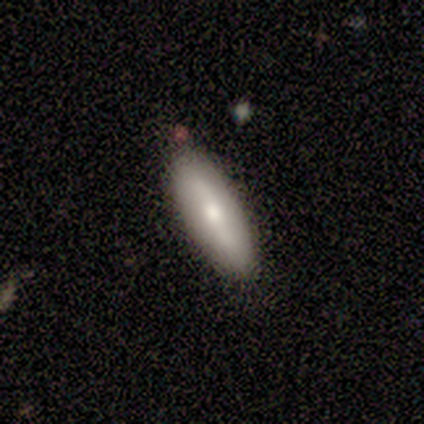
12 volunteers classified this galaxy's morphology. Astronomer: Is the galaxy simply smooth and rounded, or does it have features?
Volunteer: smooth — 58% (runner-up: featured or disk, 42%).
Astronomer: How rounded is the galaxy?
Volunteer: in between — 57% (runner-up: cigar-shaped, 43%).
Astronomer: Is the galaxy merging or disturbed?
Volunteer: none — 92%.